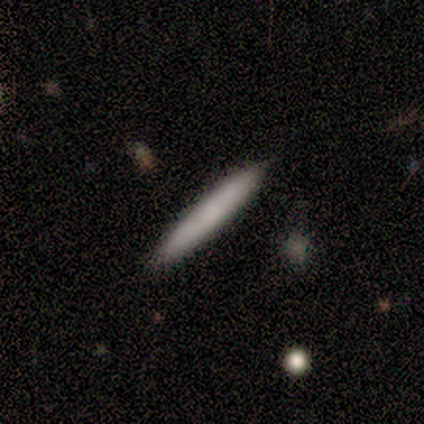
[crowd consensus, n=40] Smooth or featured?
  - smooth: 80% *
  - featured or disk: 18%
  - star or artifact: 2%
How rounded?
  - cigar-shaped: 100% *
  - round: 0%
  - in between: 0%
Merging?
  - none: 74% *
  - minor disturbance: 5%
  - merger: 5%
  - major disturbance: 0%